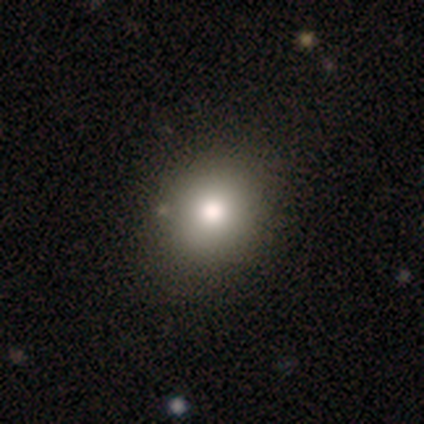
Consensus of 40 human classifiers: smooth_or_featured: smooth (p=0.82) [alt: featured or disk p=0.12]
how_rounded: round (p=0.73) [alt: in between p=0.27]
merging: none (p=0.61) [alt: merger p=0.11]